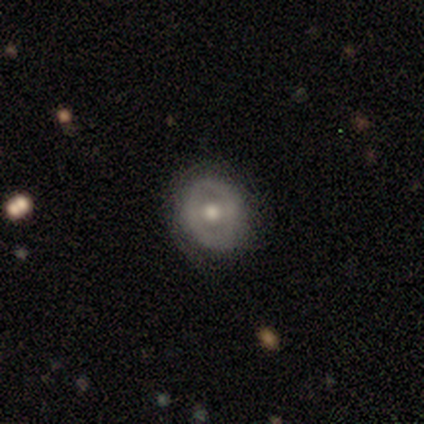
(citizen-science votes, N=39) A featured or disk galaxy (51%) with no bar (74%), no spiral arms (89%) and a moderate central bulge (89%).

Vote fractions:
- Smooth or featured? featured or disk: 51% / smooth: 44% / star or artifact: 5%
- Edge-on disk? no: 95% / yes: 5%
- Bar? no: 74% / weak: 21% / strong: 5%
- Spiral arms? no: 89% / yes: 11%
- Bulge size? moderate: 89% / large: 11% / dominant: 0% / small: 0% / none: 0%
- Merging? none: 78% / minor disturbance: 16% / major disturbance: 3% / merger: 3%